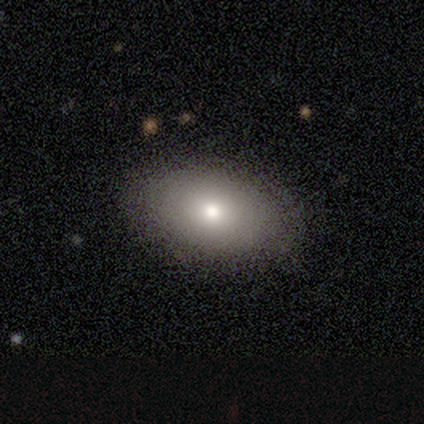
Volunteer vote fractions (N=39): smooth-or-featured: smooth: 82% | featured or disk: 15% | star or artifact: 3%
  how-rounded: in between: 97% | round: 3% | cigar-shaped: 0%
  merging: none: 95% | minor disturbance: 3% | major disturbance: 3% | merger: 0%